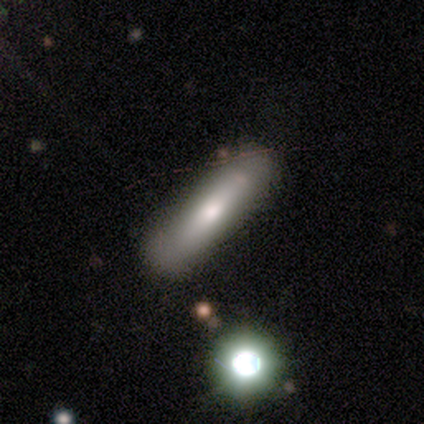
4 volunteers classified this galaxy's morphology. Overall: smooth (100%). How rounded: cigar-shaped (75%). Merging: none (100%).